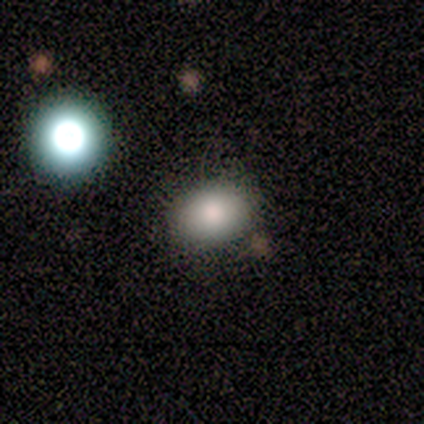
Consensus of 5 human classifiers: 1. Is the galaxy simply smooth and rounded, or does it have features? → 80% smooth, 20% featured or disk, 0% star or artifact.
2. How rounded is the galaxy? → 75% round, 25% in between, 0% cigar-shaped.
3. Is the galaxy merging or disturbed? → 100% none, 0% minor disturbance, 0% major disturbance, 0% merger.